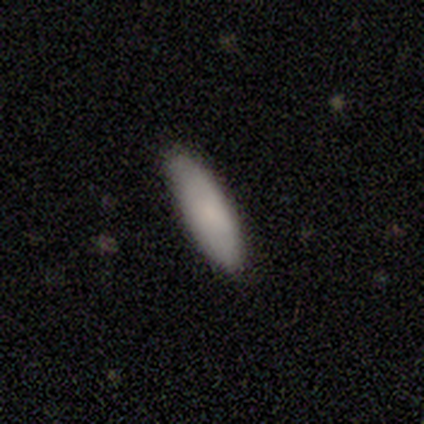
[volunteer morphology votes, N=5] Smooth or featured? smooth (80%)
How rounded? in between (50%, tied with cigar-shaped)
Merging? none (60%)